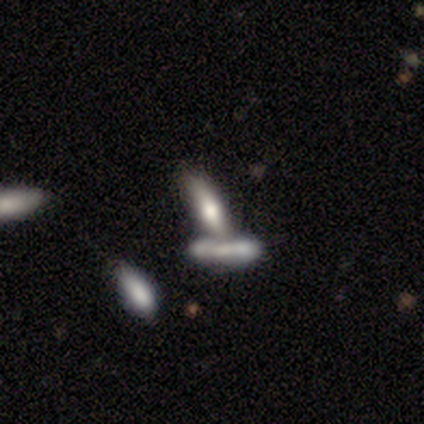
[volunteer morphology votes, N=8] Smooth or featured: smooth — 75% (featured or disk — 25%)
How rounded: cigar-shaped — 83% (in between — 17%)
Merging: none — 50% (tied with merger — 50%)